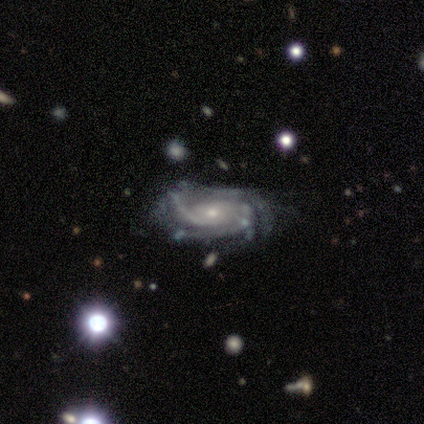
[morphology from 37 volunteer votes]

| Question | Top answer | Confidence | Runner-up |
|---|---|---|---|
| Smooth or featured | featured or disk | 92% | star or artifact (5%) |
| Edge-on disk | no | 94% | yes (6%) |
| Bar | no | 84% | weak (16%) |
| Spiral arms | yes | 100% | — |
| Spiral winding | tight | 50% | medium (41%) |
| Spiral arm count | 3 | 31% | tied: 4 (31%) |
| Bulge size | small | 88% | moderate (12%) |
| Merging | none | 60% | minor disturbance (29%) |